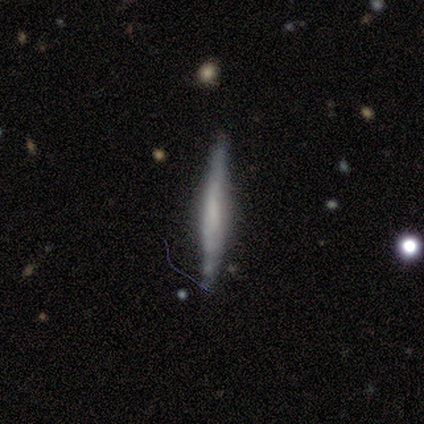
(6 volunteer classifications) Smooth or featured? featured or disk (83%)
Edge-on disk? yes (100%)
Edge-on bulge? none (60%)
Merging? none (100%)